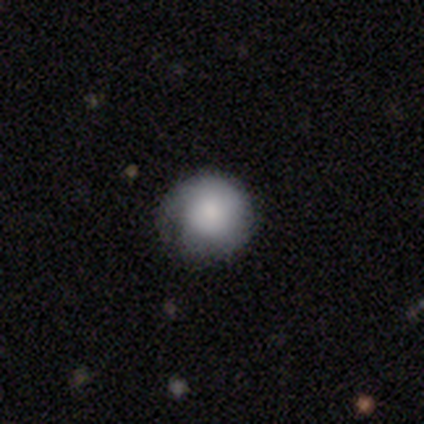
Morphology: type=smooth (100%); roundness=round (100%); merging=minor disturbance (60%).